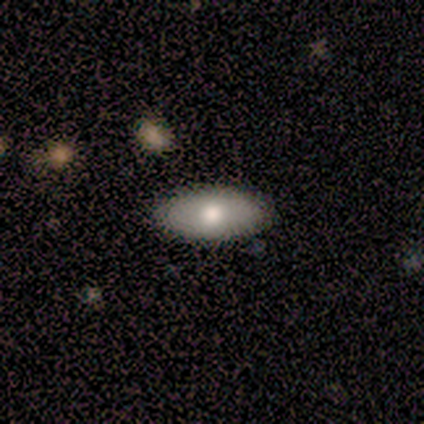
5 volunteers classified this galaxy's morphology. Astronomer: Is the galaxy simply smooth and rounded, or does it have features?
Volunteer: smooth — 60%.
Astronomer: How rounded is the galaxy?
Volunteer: in between — 100%.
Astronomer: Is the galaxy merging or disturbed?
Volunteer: none — 75%.